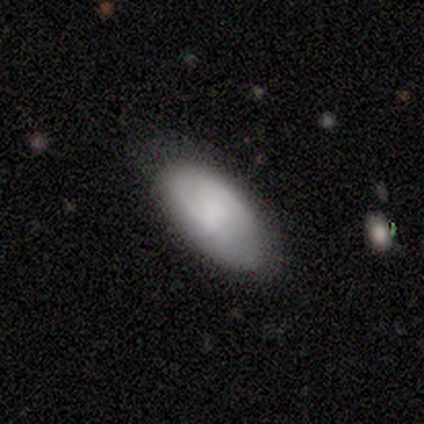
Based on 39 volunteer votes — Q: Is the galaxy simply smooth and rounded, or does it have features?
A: smooth — 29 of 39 (74%).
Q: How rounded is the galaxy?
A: in between — 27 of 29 (93%).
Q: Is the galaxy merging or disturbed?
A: none — 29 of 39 (74%).